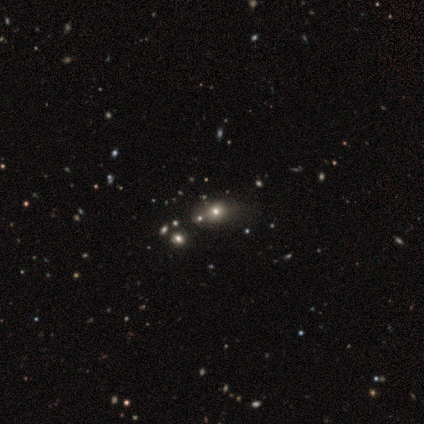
Volunteers were most divided on "smooth or featured" (2-way tie): smooth: 50%, star or artifact: 50%, featured or disk: 0%; "how rounded" (2-way tie): round: 50%, in between: 50%, cigar-shaped: 0%; "merging" (2-way tie): none: 50%, merger: 50%, minor disturbance: 0%, major disturbance: 0%.